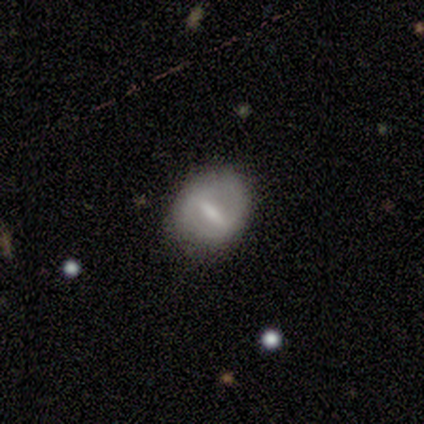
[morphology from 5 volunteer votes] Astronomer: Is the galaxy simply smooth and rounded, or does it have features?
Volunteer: featured or disk — 60%.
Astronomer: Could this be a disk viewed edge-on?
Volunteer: no — 67%.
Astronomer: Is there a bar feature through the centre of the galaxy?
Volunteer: strong — 100%.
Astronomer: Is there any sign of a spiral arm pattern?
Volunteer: no — 100%.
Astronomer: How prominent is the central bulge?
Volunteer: moderate — 50%, tied with small at 50%.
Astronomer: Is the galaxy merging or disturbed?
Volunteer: none — 100%.